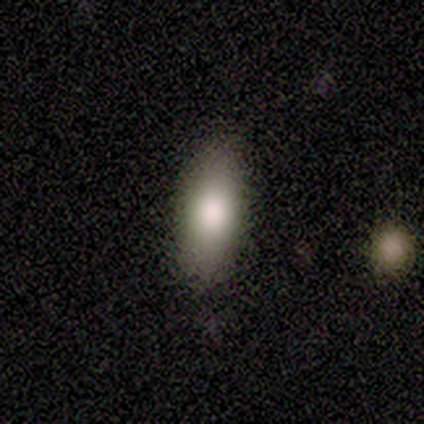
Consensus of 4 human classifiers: Morphology: type=smooth (100%); roundness=in between (75%); merging=none (100%).